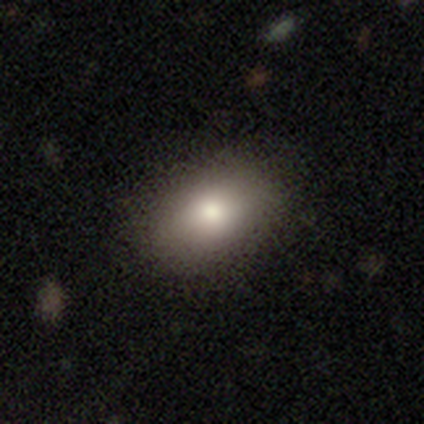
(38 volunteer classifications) Volunteers were most divided on "merging": none: 62%, minor disturbance: 9%, major disturbance: 0%, merger: 0%. More confident: how rounded — in between (86%); smooth or featured — smooth (74%).